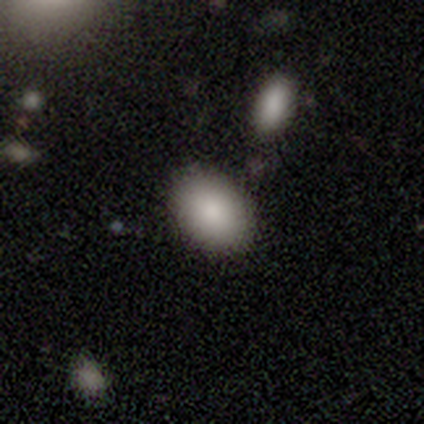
Smooth or featured: smooth — 100%
How rounded: in between — 80% (round — 20%)
Merging: none — 60% (major disturbance — 20%)